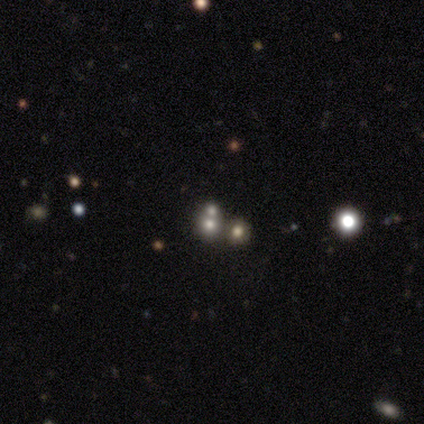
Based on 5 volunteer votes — Smooth or featured: smooth — 80% (featured or disk — 20%)
How rounded: round — 100%
Merging: none — 60% (minor disturbance — 20%)